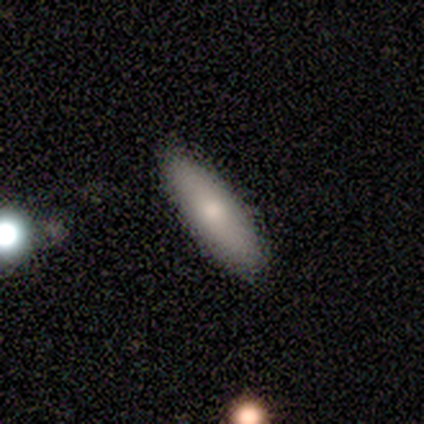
Smooth or featured? smooth (80%)
How rounded? cigar-shaped (75%)
Merging? none (100%)